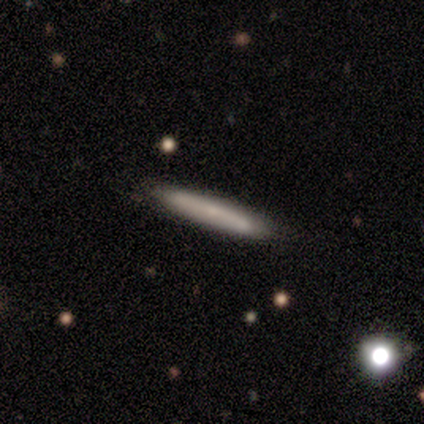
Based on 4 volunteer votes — Q: Smooth or featured?
A: smooth (75%); runner-up: featured or disk (25%)
Q: How rounded?
A: cigar-shaped (100%)
Q: Merging?
A: none (75%); runner-up: minor disturbance (25%)